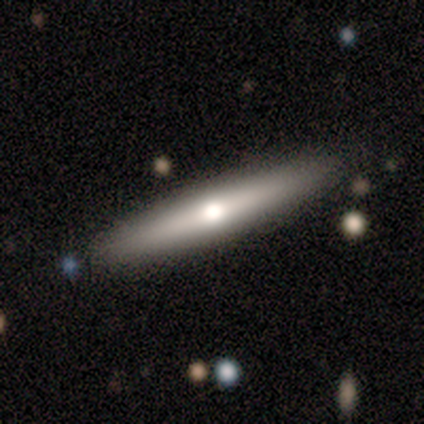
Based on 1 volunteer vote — Consensus on every question: smooth or featured — featured or disk (100%); edge-on disk — yes (100%); edge-on bulge — boxy (100%); merging — none (100%).